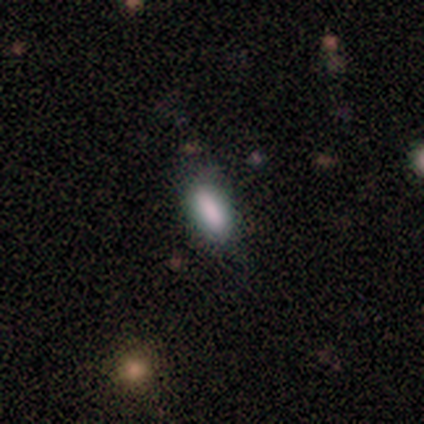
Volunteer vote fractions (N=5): Smooth or featured? 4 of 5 (80%) said smooth. How rounded? 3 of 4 (75%) said in between. Merging? 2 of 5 (40%) said none.